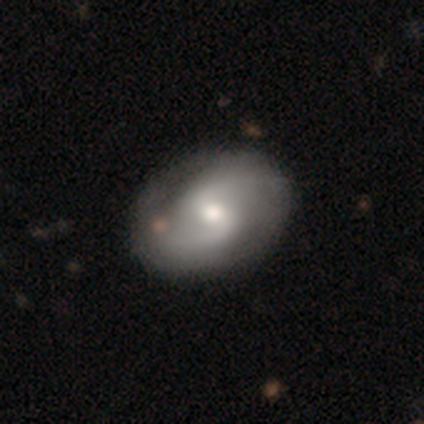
This is clearly a featured or disk galaxy (82%). It is clearly not viewed edge-on (100%). Bar: likely weak (66%). Spiral arm pattern: clearly yes (97%). Spiral arm count: clearly 2 (100%). Spiral winding: possibly medium (48%, tied with loose). Central bulge: likely moderate (66%). Merging: clearly none (84%).